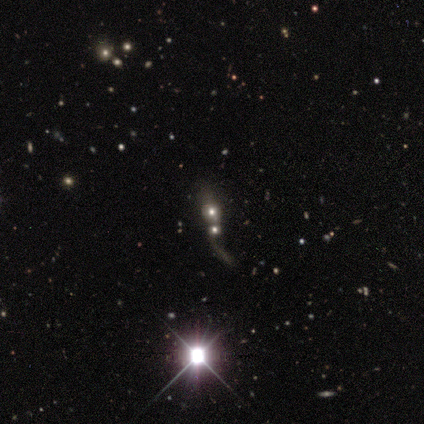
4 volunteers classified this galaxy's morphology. Volunteers were most divided on "edge-on disk" (2-way tie): yes: 50%, no: 50%. More confident: edge-on bulge — rounded (100%); merging — merger (67%); smooth or featured — featured or disk (50%).